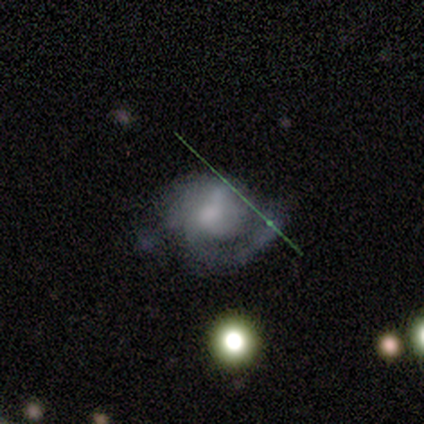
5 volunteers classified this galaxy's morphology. Smooth or featured? 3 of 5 (60%) said smooth. How rounded? 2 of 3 (67%) said in between. Merging? 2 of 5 (40%) said major disturbance.